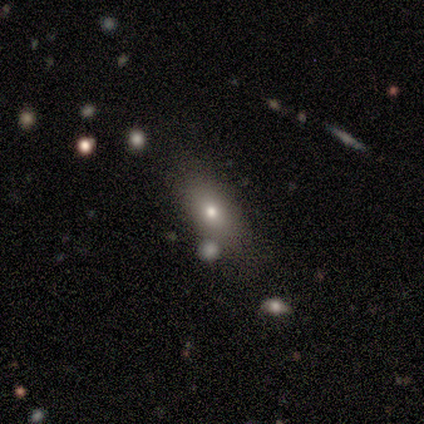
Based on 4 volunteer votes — Overall: smooth (75%). How rounded: in between (100%). Merging: none (75%).